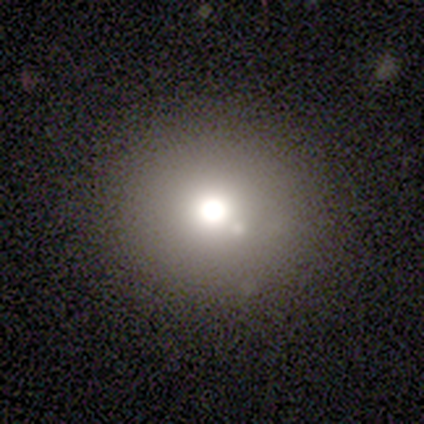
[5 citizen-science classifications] Smooth or featured? star or artifact (100%)